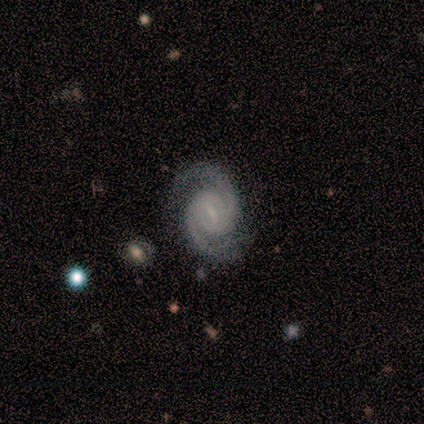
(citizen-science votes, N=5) Smooth or featured? 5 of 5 (100%) said featured or disk. Edge-on disk? 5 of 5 (100%) said no. Bar? 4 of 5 (80%) said weak. Spiral arms? 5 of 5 (100%) said yes. Spiral winding? 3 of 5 (60%) said medium. Spiral arm count? 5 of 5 (100%) said 2. Bulge size? 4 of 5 (80%) said small. Merging? 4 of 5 (80%) said none.